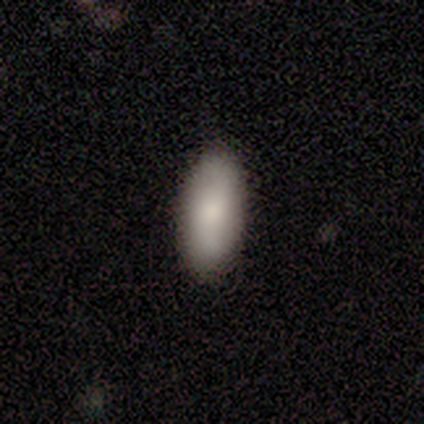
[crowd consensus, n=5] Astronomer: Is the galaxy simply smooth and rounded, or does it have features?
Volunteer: smooth — 100%.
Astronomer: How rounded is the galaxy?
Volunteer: in between — 60% (runner-up: cigar-shaped, 40%).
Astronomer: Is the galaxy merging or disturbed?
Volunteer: none — 100%.